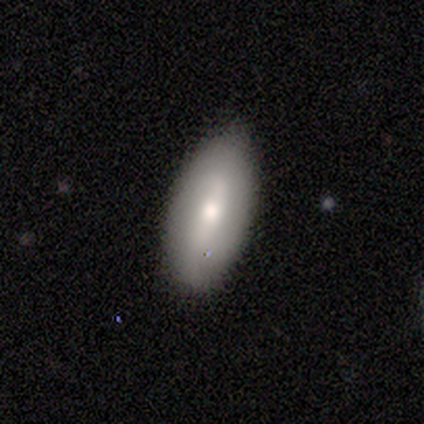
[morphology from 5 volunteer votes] smooth 60%, featured or disk 40%, star or artifact 0%. Down the decision tree: how rounded — in between (100%); merging — none (80%).